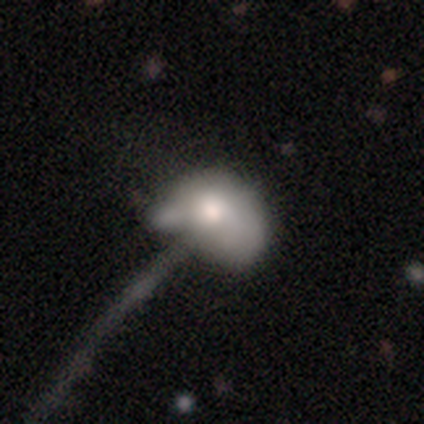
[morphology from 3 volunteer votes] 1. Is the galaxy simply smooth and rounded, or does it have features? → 67% smooth, 33% featured or disk, 0% star or artifact.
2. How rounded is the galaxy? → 100% in between, 0% round, 0% cigar-shaped.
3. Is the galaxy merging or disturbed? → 33% none (tied), 33% major disturbance (tied), 33% merger (tied), 0% minor disturbance.